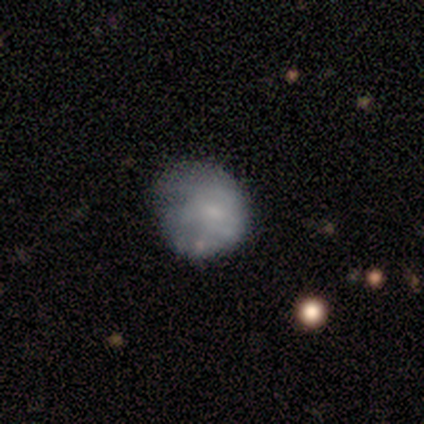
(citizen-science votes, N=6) A smooth galaxy with no disk features (100%) that is round (83%). Merging: minor disturbance (83%).